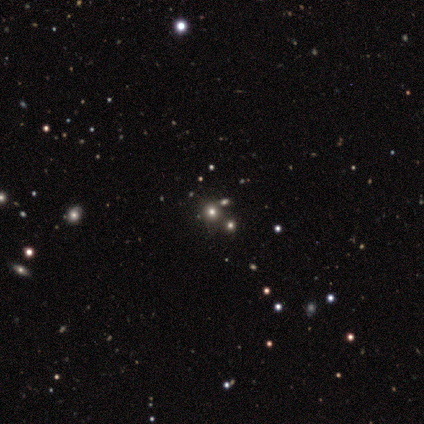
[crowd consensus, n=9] Smooth or featured?
  - smooth: 56% *
  - star or artifact: 33%
  - featured or disk: 11%
How rounded?
  - round: 80% *
  - in between: 20%
  - cigar-shaped: 0%
Merging?
  - none: 100% *
  - minor disturbance: 0%
  - major disturbance: 0%
  - merger: 0%